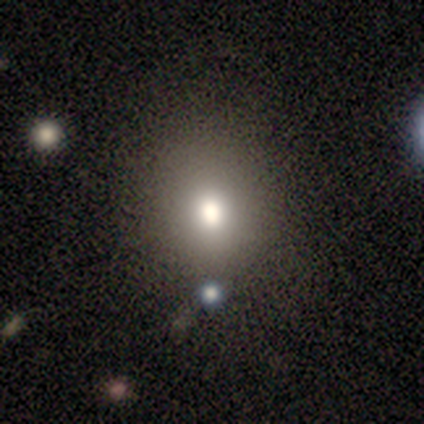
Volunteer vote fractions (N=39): Smooth or featured?
  - smooth: 74% *
  - star or artifact: 18%
  - featured or disk: 8%
How rounded?
  - round: 72% *
  - in between: 28%
  - cigar-shaped: 0%
Merging?
  - none: 62% *
  - minor disturbance: 9%
  - major disturbance: 3%
  - merger: 3%